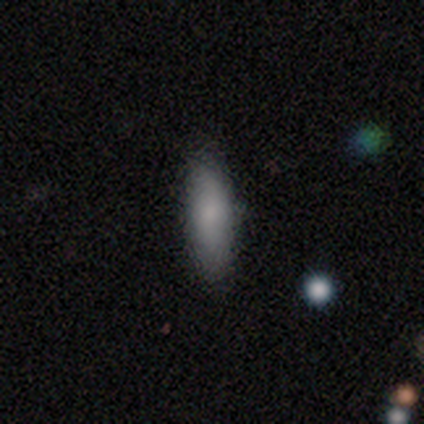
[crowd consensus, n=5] featured or disk 60%, smooth 40%, star or artifact 0%. Down the decision tree: edge-on disk — yes (67%); edge-on bulge — none (50%, tied with rounded); merging — none (80%).